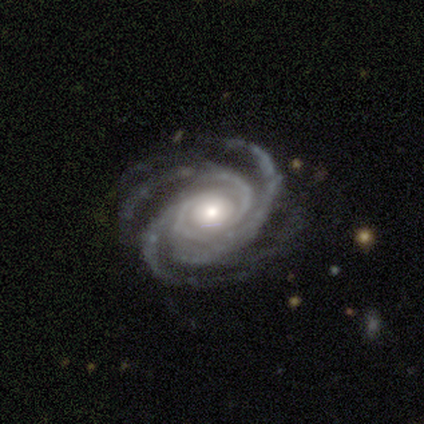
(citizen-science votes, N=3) smooth_or_featured: featured or disk (p=1.00)
disk_edge_on: no (p=1.00)
bar: weak (p=1.00)
has_spiral_arms: yes (p=1.00)
spiral_winding: tight (p=0.67) [alt: medium p=0.33]
spiral_arm_count: 3 (p=0.67) [alt: 4 p=0.33]
bulge_size: small (p=0.67) [alt: moderate p=0.33]
merging: none (p=0.67) [alt: minor disturbance p=0.33]